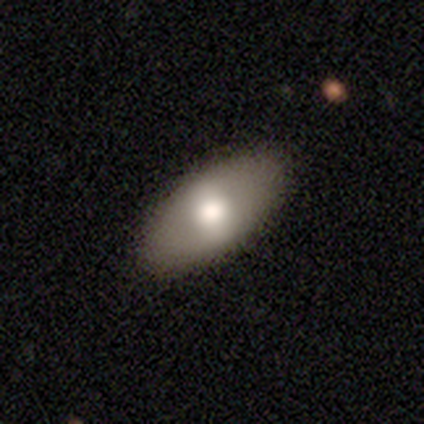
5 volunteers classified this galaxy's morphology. Smooth or featured: smooth — 60% (featured or disk — 40%)
How rounded: in between — 100%
Merging: none — 100%